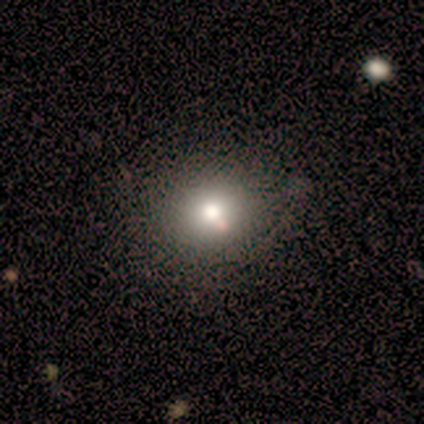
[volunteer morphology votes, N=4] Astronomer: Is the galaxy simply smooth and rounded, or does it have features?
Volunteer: smooth — 50%, tied with featured or disk at 50%.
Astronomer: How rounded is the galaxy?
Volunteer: round — 100%.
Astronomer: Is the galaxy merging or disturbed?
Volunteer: none — 100%.